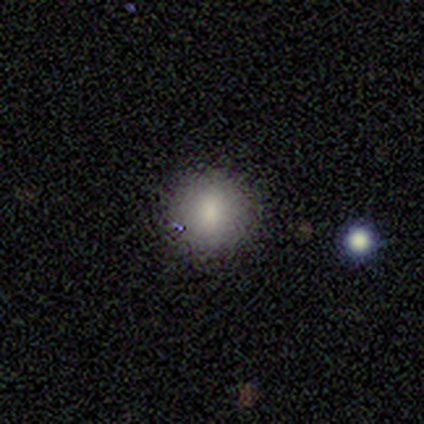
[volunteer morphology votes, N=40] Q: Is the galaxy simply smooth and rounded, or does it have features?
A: smooth — 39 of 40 (98%).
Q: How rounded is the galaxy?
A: round — 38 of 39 (97%).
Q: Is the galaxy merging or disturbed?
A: none — 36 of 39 (92%).